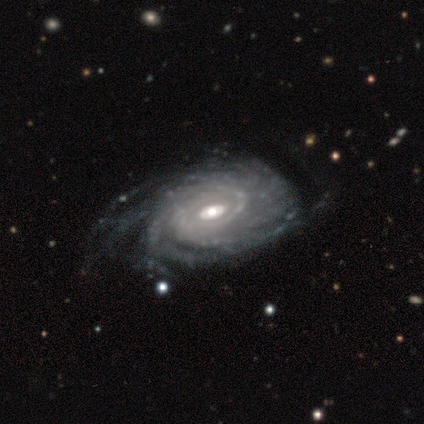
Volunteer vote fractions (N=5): This is clearly a featured or disk galaxy (100%). It is clearly not viewed edge-on (100%). Bar: likely weak (60%). Spiral arm pattern: clearly yes (100%). Spiral arm count: clearly more than 4 (80%). Spiral winding: clearly tight (80%). Central bulge: likely moderate (60%). Merging: clearly none (80%).